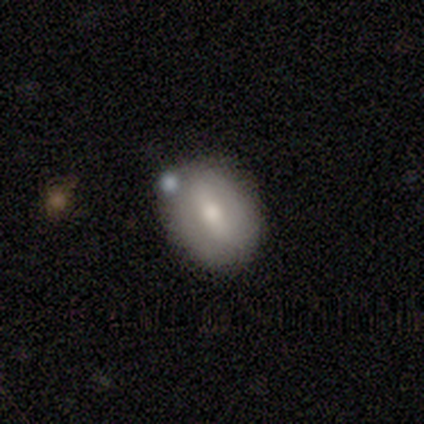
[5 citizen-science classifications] This is likely a featured or disk galaxy (60%). It is likely not viewed edge-on (67%). Bar: clearly strong (100%). Spiral arm pattern: clearly no (100%). Central bulge: clearly moderate (100%). Merging: marginally none (40%, tied with minor disturbance).